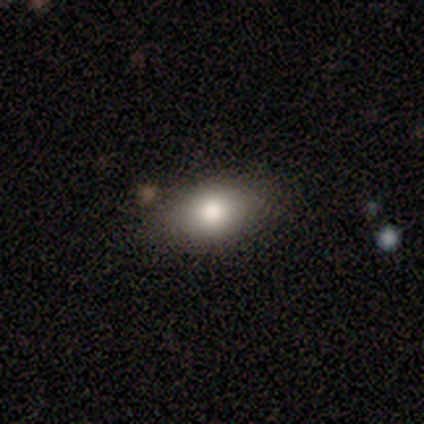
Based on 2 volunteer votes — Volunteers were most divided on "merging" (2-way tie): none: 50%, minor disturbance: 50%, major disturbance: 0%, merger: 0%. More confident: smooth or featured — smooth (100%); how rounded — in between (100%).